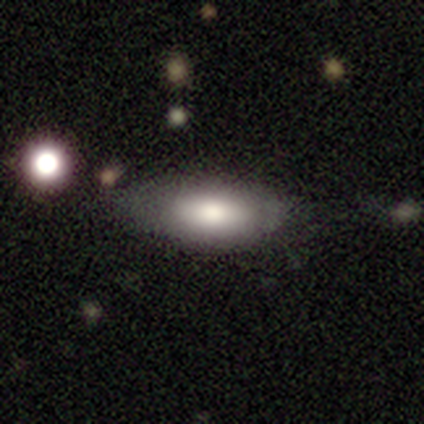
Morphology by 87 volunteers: Q: Smooth or featured?
A: smooth (79%); runner-up: featured or disk (15%)
Q: How rounded?
A: in between (84%); runner-up: cigar-shaped (14%)
Q: Merging?
A: none (62%); runner-up: minor disturbance (27%)